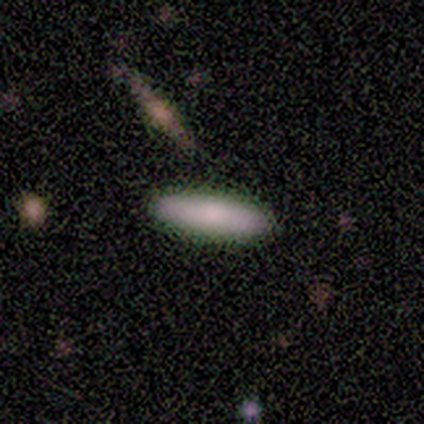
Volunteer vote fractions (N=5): smooth_or_featured: smooth (p=0.80) [alt: featured or disk p=0.20]
how_rounded: in between (p=0.75) [alt: cigar-shaped p=0.25]
merging: none (p=0.80) [alt: major disturbance p=0.20]